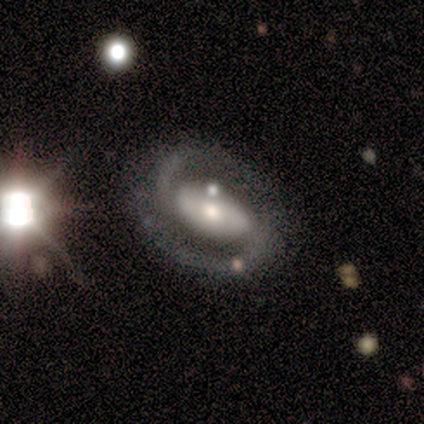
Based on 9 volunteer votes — Morphology: type=featured or disk (89%); edge-on=no (100%); bar=weak (50%); spiral arms=yes (100%); winding=medium (50%); arm count=2 (100%); bulge=moderate (62%); merging=none (78%).